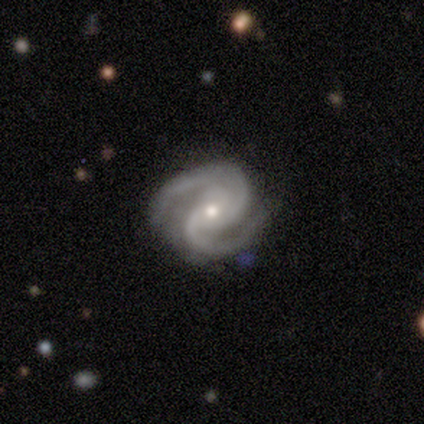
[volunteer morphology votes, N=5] This appears to be a featured or disk galaxy (100%) with no bar (60%), 2 (60%) medium (100%) spiral arms (100%) and a moderate central bulge (60%). Merging: none (80%).